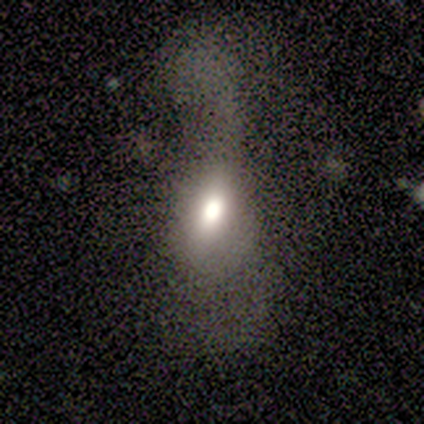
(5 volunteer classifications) Overall: smooth (40%, tied with featured or disk). How rounded: in between (50%, tied with cigar-shaped). Merging: major disturbance (75%).